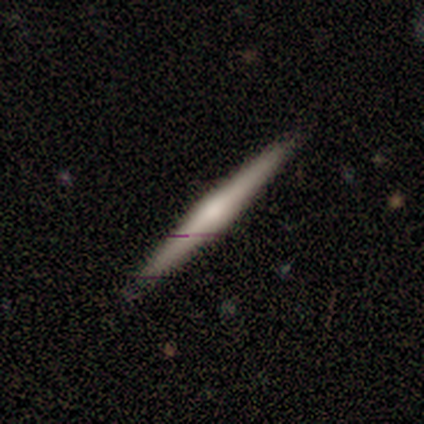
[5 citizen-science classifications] A smooth galaxy with no disk features (60%) that is cigar-shaped (100%).

Vote fractions:
- Smooth or featured? smooth: 60% / featured or disk: 40% / star or artifact: 0%
- How rounded? cigar-shaped: 100% / round: 0% / in between: 0%
- Merging? none: 100% / minor disturbance: 0% / major disturbance: 0% / merger: 0%